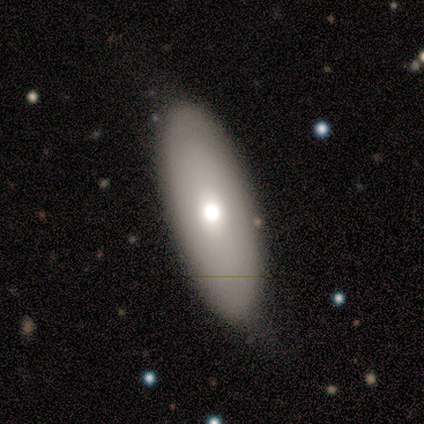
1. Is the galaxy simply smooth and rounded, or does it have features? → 79% smooth, 13% featured or disk, 8% star or artifact.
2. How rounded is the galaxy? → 80% in between, 13% cigar-shaped, 7% round.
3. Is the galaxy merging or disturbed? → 71% none, 20% minor disturbance, 9% major disturbance, 0% merger.